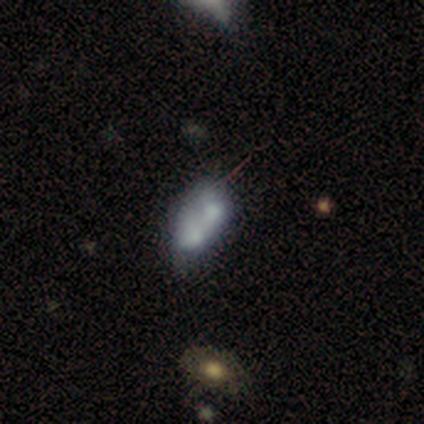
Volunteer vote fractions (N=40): smooth-or-featured: smooth: 48% | featured or disk: 42% | star or artifact: 10%
  how-rounded: in between: 84% | round: 16% | cigar-shaped: 0%
  merging: merger: 69% | none: 14% | minor disturbance: 14% | major disturbance: 3%